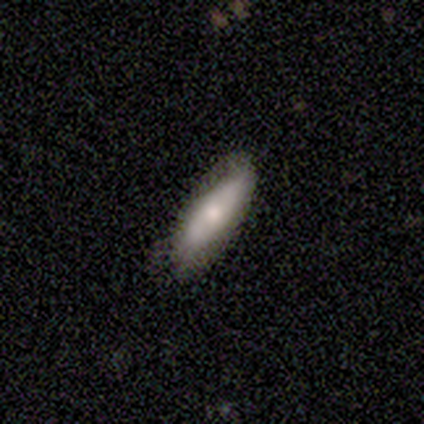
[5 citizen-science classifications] smooth_or_featured: smooth (p=0.80) [alt: featured or disk p=0.20]
how_rounded: in between (p=0.50) [tied with: cigar-shaped p=0.50]
merging: none (p=1.00)